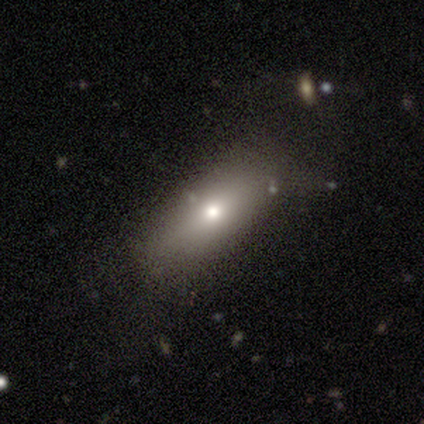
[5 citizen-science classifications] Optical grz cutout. It shows a smooth galaxy with no disk features (60%) that is in between round and cigar-shaped (67%). Merging: none (100%).